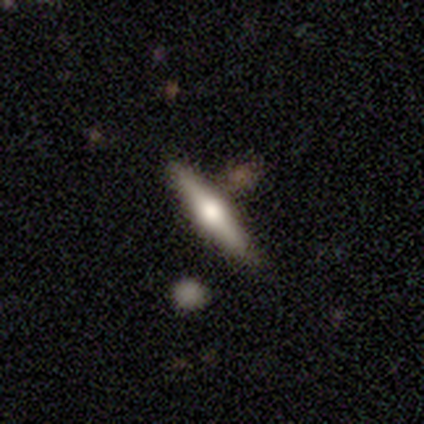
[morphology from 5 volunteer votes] Smooth or featured? featured or disk (100%)
Edge-on disk? yes (100%)
Edge-on bulge? rounded (100%)
Merging? none (100%)